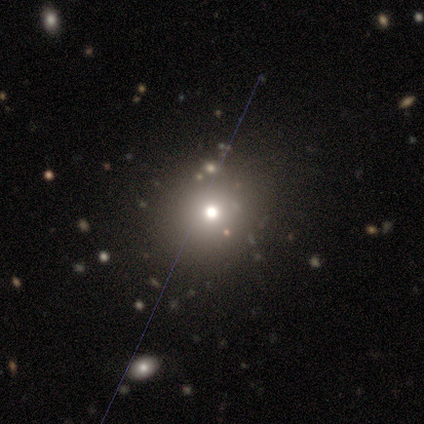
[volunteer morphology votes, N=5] Smooth or featured? 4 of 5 (80%) said smooth. How rounded? 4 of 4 (100%) said round. Merging? 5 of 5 (100%) said none.